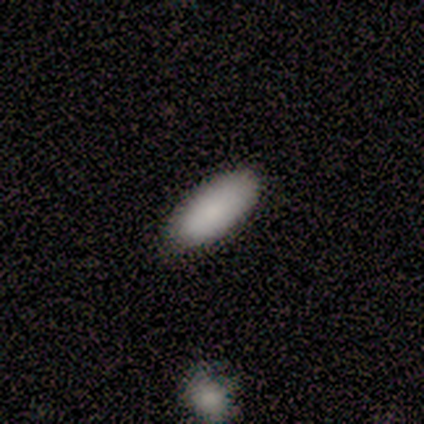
This appears to be a smooth galaxy with no disk features (80%) that is in between round and cigar-shaped (100%). Merging: none (75%).